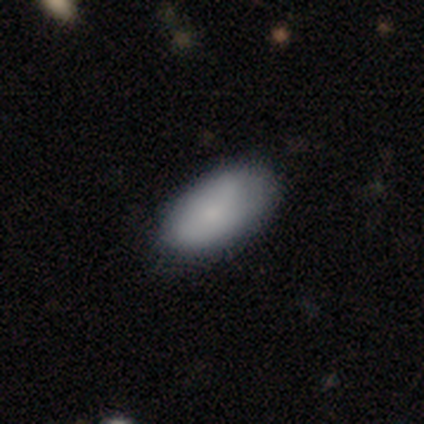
smooth_or_featured: smooth (p=0.81) [alt: featured or disk p=0.13]
how_rounded: in between (p=0.93) [alt: round p=0.04]
merging: none (p=0.77) [alt: minor disturbance p=0.20]